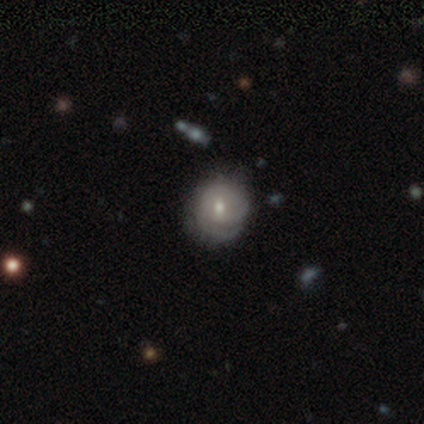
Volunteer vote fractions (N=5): featured or disk 80%, smooth 20%, star or artifact 0%. Down the decision tree: edge-on disk — no (100%); bar — no (100%); spiral arms — yes (100%); spiral arm count — can't tell (50%); spiral winding — tight (75%); bulge size — small (75%); merging — none (80%).